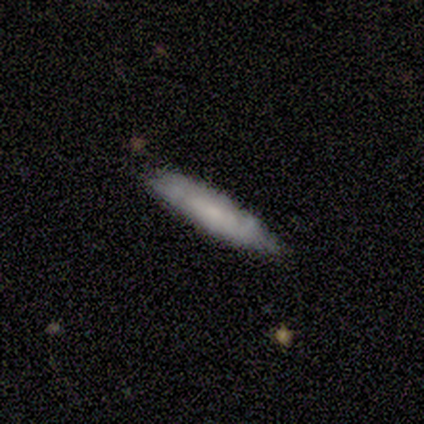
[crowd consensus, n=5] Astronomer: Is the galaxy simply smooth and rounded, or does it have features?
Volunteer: featured or disk — 60%.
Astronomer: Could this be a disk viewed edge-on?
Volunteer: yes — 67%.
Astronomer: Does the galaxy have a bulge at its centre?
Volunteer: boxy — 50%, tied with none at 50%.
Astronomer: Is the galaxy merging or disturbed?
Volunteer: none — 100%.